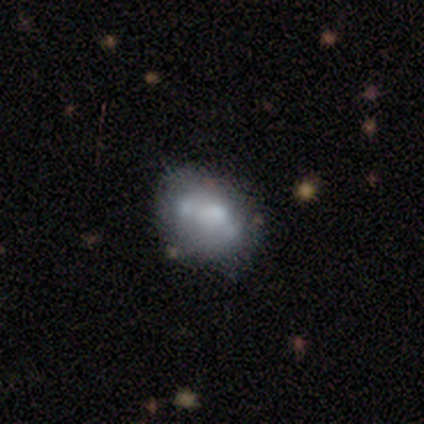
Smooth or featured? featured or disk (57%)
Edge-on disk? no (100%)
Bar? no (86%)
Spiral arms? no (90%)
Bulge size? moderate (43%, tied with none)
Merging? none (30%)